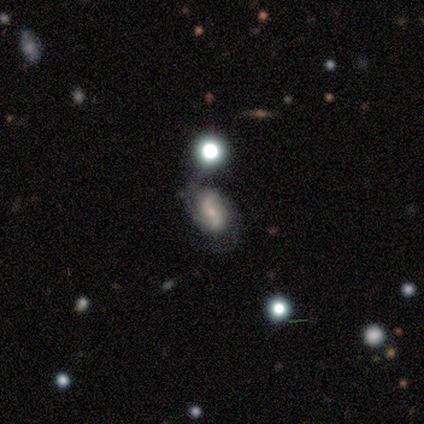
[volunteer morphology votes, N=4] Smooth or featured? 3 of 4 (75%) said featured or disk. Edge-on disk? 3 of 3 (100%) said no. Bar? 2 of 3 (67%) said strong. Spiral arms? 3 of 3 (100%) said yes. Spiral winding? 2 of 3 (67%) said loose. Spiral arm count? 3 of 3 (100%) said 2. Bulge size? 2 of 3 (67%) said moderate. Merging? 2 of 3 (67%) said minor disturbance.